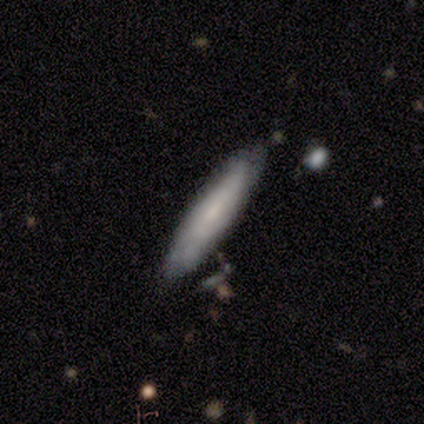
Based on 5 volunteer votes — Volunteers were most divided on "smooth or featured": smooth: 60%, featured or disk: 40%, star or artifact: 0%. More confident: how rounded — cigar-shaped (100%); merging — none (100%).